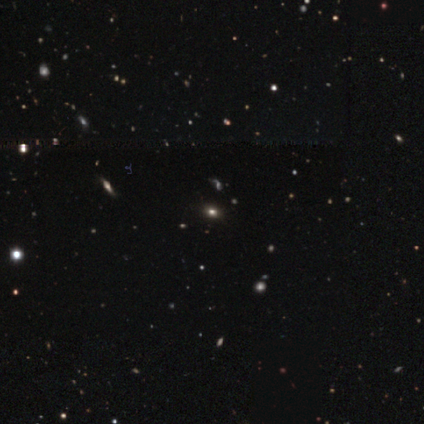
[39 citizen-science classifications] Smooth or featured? 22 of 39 (56%) said star or artifact.